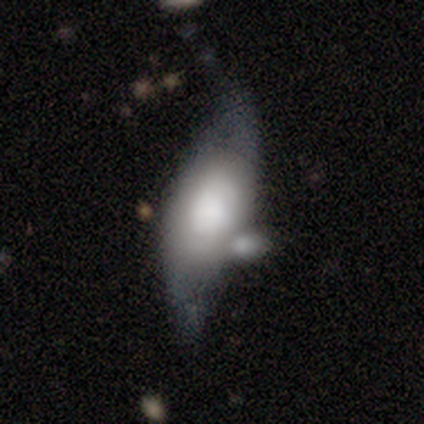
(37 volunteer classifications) This appears to be a smooth galaxy with no disk features (46%) that is in between round and cigar-shaped (82%). Merging: minor disturbance (36%).